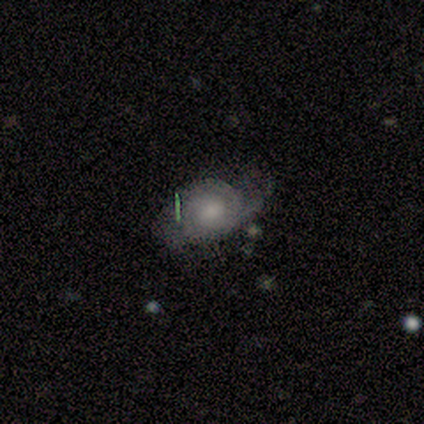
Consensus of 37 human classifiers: This is likely a featured or disk galaxy (68%). It is clearly not viewed edge-on (100%). Bar: likely no (76%). Spiral arm pattern: likely yes (76%). Spiral arm count: marginally 2 (42%). Spiral winding: possibly tight (58%). Central bulge: possibly small (56%). Merging: likely none (64%).